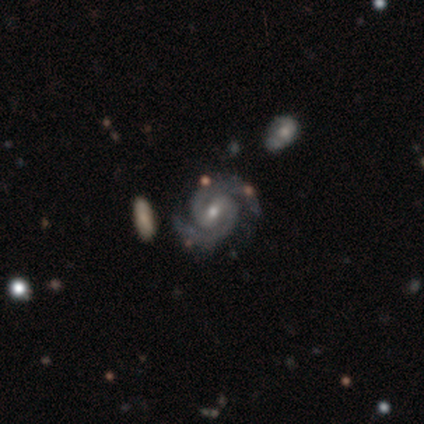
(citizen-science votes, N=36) featured or disk 94%, star or artifact 6%, smooth 0%. Down the decision tree: edge-on disk — no (100%); bar — weak (47%); spiral arms — yes (100%); spiral arm count — 2 (100%); spiral winding — medium (53%); bulge size — moderate (56%); merging — none (85%).